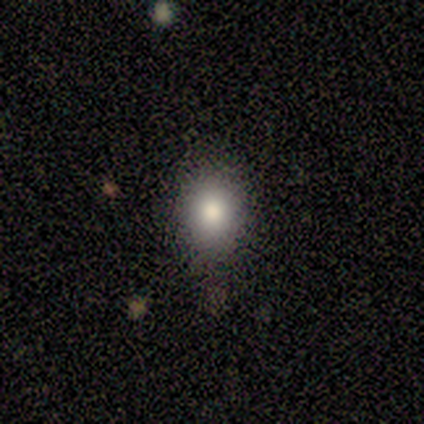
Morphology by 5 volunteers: smooth 60%, featured or disk 20%, star or artifact 20%. Down the decision tree: how rounded — round (67%); merging — none (100%).